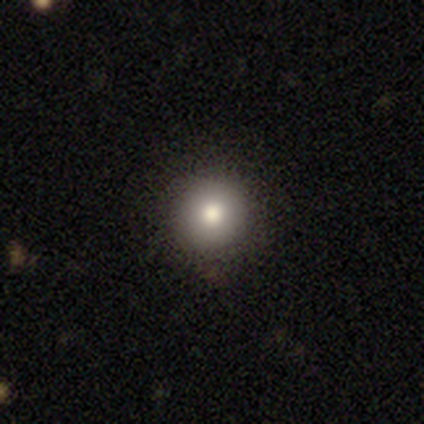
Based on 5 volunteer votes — smooth 100%, featured or disk 0%, star or artifact 0%. Down the decision tree: how rounded — round (100%); merging — none (100%).